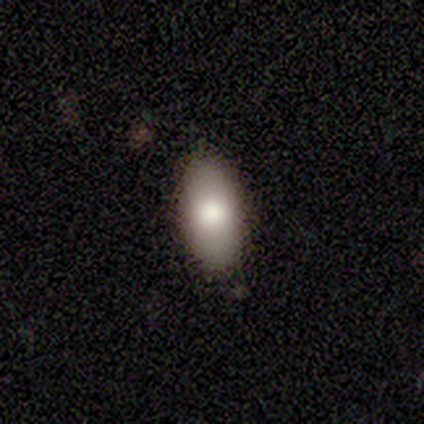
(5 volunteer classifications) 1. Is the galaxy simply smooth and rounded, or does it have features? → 60% smooth, 40% featured or disk, 0% star or artifact.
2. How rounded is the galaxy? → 67% in between, 33% cigar-shaped, 0% round.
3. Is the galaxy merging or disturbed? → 100% none, 0% minor disturbance, 0% major disturbance, 0% merger.